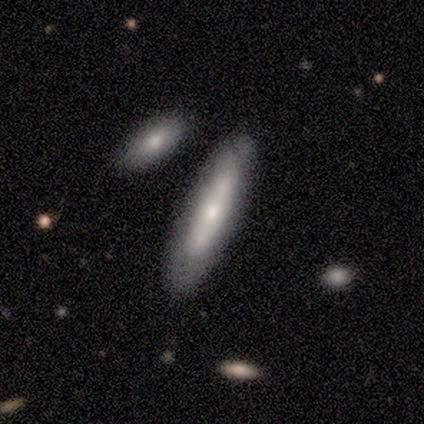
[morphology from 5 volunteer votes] This appears to be a smooth galaxy with no disk features (60%) that is cigar-shaped (67%). Merging: none (100%).